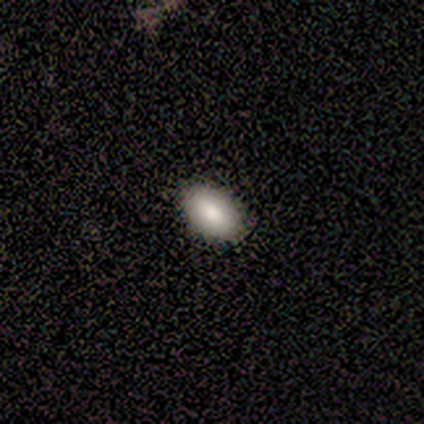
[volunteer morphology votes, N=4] A smooth galaxy with no disk features (100%) that is in between round and cigar-shaped (100%).

Vote fractions:
- Smooth or featured? smooth: 100% / featured or disk: 0% / star or artifact: 0%
- How rounded? in between: 100% / round: 0% / cigar-shaped: 0%
- Merging? none: 100% / minor disturbance: 0% / major disturbance: 0% / merger: 0%